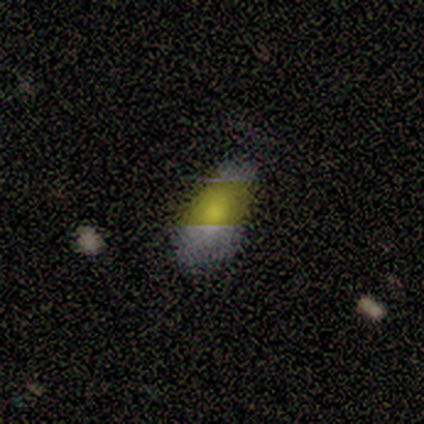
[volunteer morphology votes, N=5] Smooth or featured: smooth — 80% (featured or disk — 20%)
How rounded: in between — 100%
Merging: none — 100%